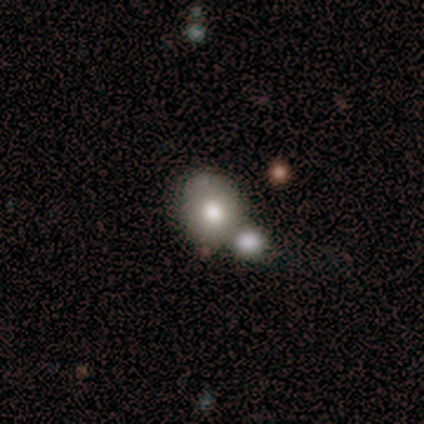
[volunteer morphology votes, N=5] Smooth or featured?
  - featured or disk: 60% *
  - smooth: 40%
  - star or artifact: 0%
Edge-on disk?
  - no: 100% *
  - yes: 0%
Bar?
  - no: 100% *
  - strong: 0%
  - weak: 0%
Spiral arms?
  - no: 100% *
  - yes: 0%
Bulge size?
  - moderate: 67% *
  - large: 33%
  - dominant: 0%
  - small: 0%
  - none: 0%
Merging?
  - none: 60% *
  - merger: 40%
  - minor disturbance: 0%
  - major disturbance: 0%